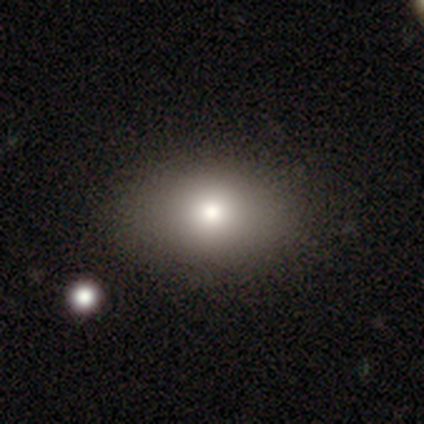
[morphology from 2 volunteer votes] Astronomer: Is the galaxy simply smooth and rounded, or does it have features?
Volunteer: smooth — 100%.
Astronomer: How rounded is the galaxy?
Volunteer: round — 100%.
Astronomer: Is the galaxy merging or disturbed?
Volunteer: none — 100%.